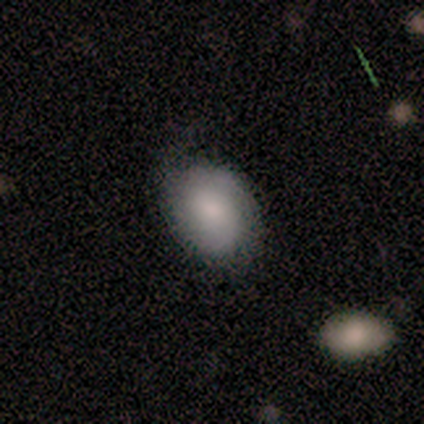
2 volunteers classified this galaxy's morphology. This is possibly a smooth galaxy (50%, tied with featured or disk). How rounded: clearly in between (100%). Merging: clearly none (100%).